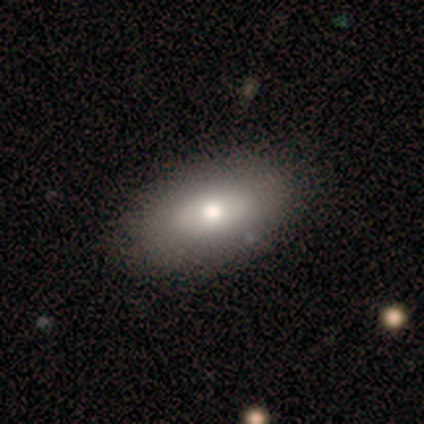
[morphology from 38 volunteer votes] Smooth or featured? 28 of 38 (74%) said smooth. How rounded? 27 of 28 (96%) said in between. Merging? 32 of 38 (84%) said none.